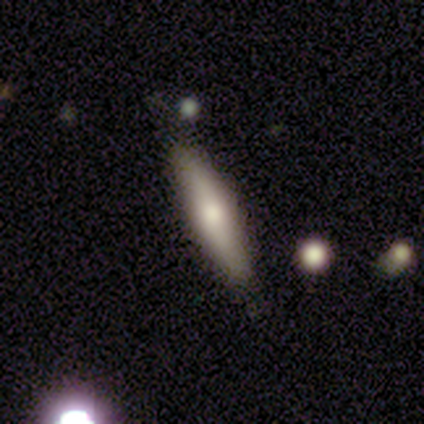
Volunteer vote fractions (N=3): smooth 67%, featured or disk 33%, star or artifact 0%. Down the decision tree: how rounded — cigar-shaped (100%); merging — none (33%, tied with minor disturbance and major disturbance).